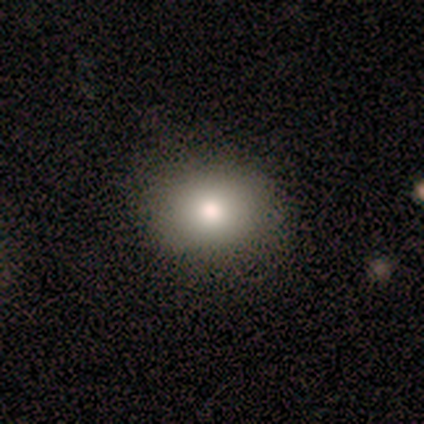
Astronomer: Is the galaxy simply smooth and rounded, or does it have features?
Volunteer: smooth — 79%.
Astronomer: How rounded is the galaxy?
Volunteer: round — 65%.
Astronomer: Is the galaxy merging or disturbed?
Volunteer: none — 97%.